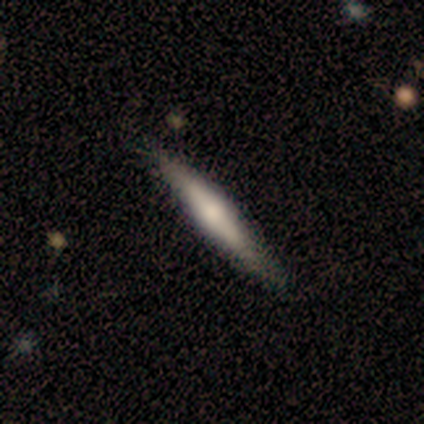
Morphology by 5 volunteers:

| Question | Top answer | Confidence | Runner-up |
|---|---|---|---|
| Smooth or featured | featured or disk | 60% | smooth (40%) |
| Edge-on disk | yes | 100% | — |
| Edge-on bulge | rounded | 100% | — |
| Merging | none | 100% | — |